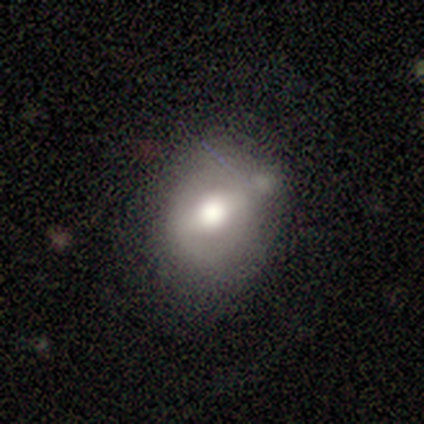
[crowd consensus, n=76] Smooth or featured: smooth — 51% (featured or disk — 45%)
How rounded: round — 74% (in between — 26%)
Merging: none — 29% (minor disturbance — 22%)